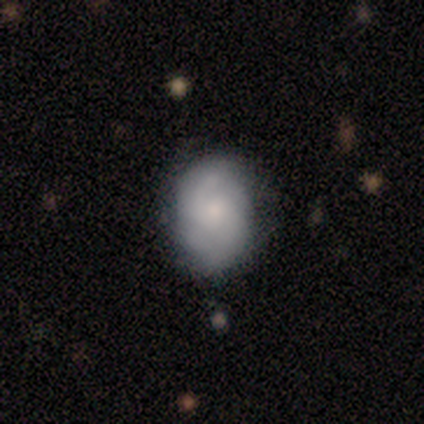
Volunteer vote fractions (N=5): smooth_or_featured: smooth (p=0.60) [alt: featured or disk p=0.20]
how_rounded: in between (p=1.00)
merging: none (p=0.50) [tied with: minor disturbance p=0.50]